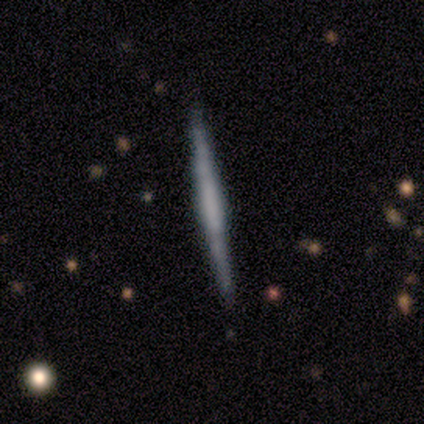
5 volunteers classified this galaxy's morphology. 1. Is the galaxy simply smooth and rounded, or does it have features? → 80% featured or disk, 20% smooth, 0% star or artifact.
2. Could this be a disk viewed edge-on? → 100% yes, 0% no.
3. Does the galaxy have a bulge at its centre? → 50% boxy (tied), 50% none (tied), 0% rounded.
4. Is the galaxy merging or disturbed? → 100% none, 0% minor disturbance, 0% major disturbance, 0% merger.